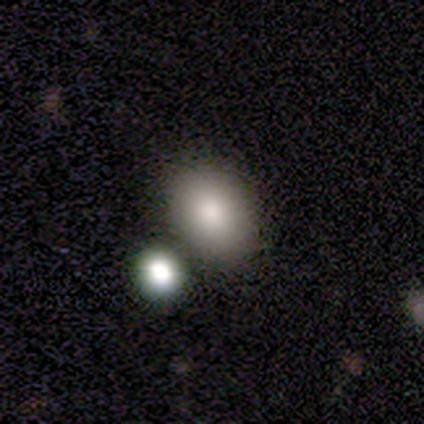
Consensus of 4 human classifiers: Smooth or featured?
  - smooth: 100% *
  - featured or disk: 0%
  - star or artifact: 0%
How rounded?
  - round: 50% * (tied)
  - in between: 50% * (tied)
  - cigar-shaped: 0%
Merging?
  - none: 25% * (tied)
  - minor disturbance: 25% * (tied)
  - major disturbance: 25% * (tied)
  - merger: 25% * (tied)